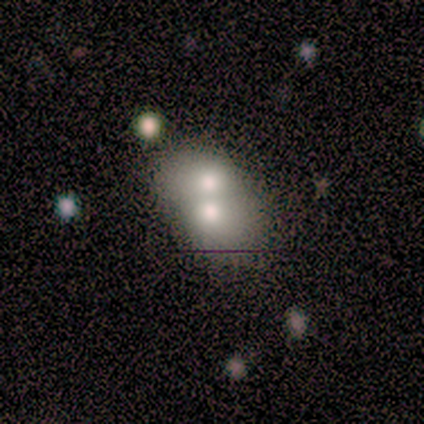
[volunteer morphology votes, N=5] Overall: smooth (60%; featured or disk 20%). How rounded: in between (100%). Merging: merger (100%).